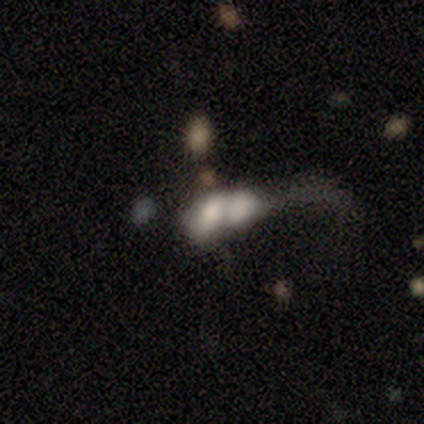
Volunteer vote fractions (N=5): Smooth or featured? smooth (100%)
How rounded? in between (100%)
Merging? merger (80%)